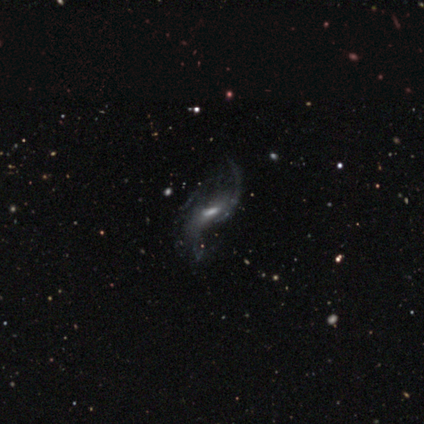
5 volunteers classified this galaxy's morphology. smooth-or-featured: featured or disk: 100% | smooth: 0% | star or artifact: 0%
  disk-edge-on: no: 100% | yes: 0%
    bar: weak: 40% (tied) | no: 40% (tied) | strong: 20%
    has-spiral-arms: yes: 100% | no: 0%
      spiral-winding: loose: 100% | tight: 0% | medium: 0%
      spiral-arm-count: 2: 100% | 1: 0% | 3: 0% | 4: 0% | more than 4: 0% | can't tell: 0%
    bulge-size: moderate: 60% | small: 40% | dominant: 0% | large: 0% | none: 0%
  merging: none: 60% | minor disturbance: 20% | major disturbance: 20% | merger: 0%